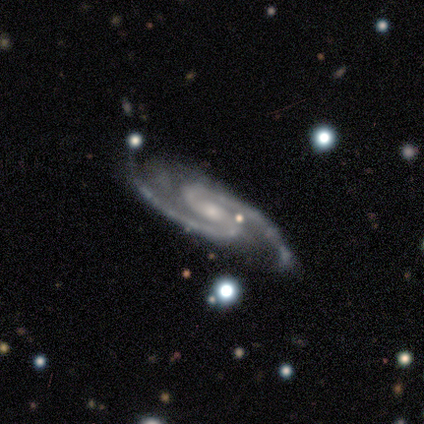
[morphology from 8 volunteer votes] This is clearly a featured or disk galaxy (100%). It is clearly not viewed edge-on (100%). Bar: marginally strong (38%, tied with no). Spiral arm pattern: clearly yes (100%). Spiral arm count: clearly 2 (100%). Spiral winding: likely medium (75%). Central bulge: clearly small (88%). Merging: likely none (75%).